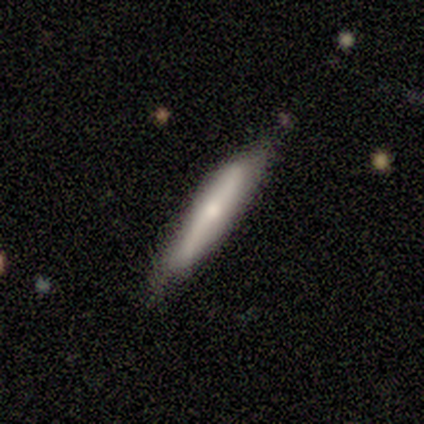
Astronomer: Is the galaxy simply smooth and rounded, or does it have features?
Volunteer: smooth — 75%.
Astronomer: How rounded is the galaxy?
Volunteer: cigar-shaped — 100%.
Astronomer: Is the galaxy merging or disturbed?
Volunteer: none — 50%, tied with minor disturbance at 50%.